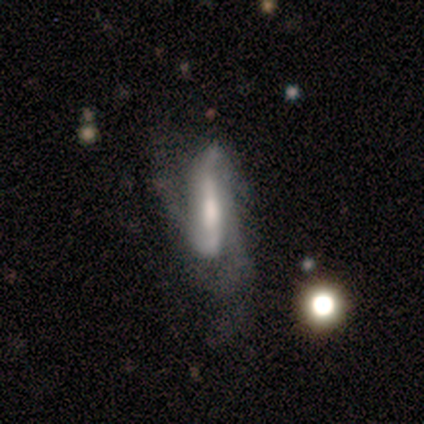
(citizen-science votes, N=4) A featured or disk galaxy (100%) viewed edge-on (75%) with no central bulge (67%). Merging: none (75%).